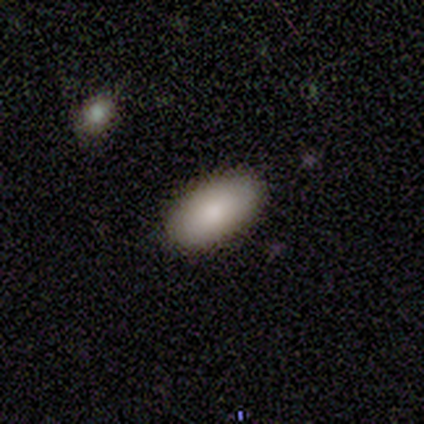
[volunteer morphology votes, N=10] A smooth galaxy with no disk features (80%) that is in between round and cigar-shaped (75%). Merging: none (75%).